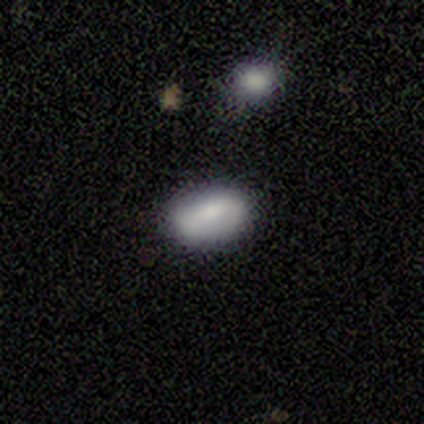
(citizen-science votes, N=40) This appears to be a smooth galaxy with no disk features (65%) that is in between round and cigar-shaped (96%). Merging: none (89%).